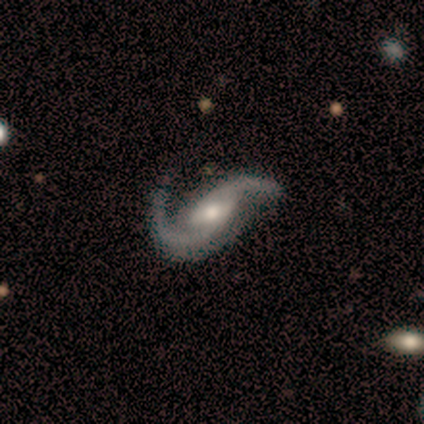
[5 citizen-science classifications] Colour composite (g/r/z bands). It shows a featured or disk galaxy (100%) with no bar (60%), 2 (100%) loose (60%) spiral arms (100%) and a moderate central bulge (60%). Merging: none (60%).